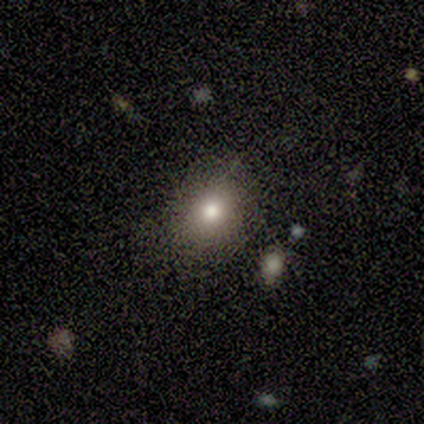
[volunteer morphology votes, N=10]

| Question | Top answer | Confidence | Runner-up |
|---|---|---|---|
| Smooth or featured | smooth | 90% | featured or disk (10%) |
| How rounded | round | 67% | in between (33%) |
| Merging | none | 90% | minor disturbance (10%) |